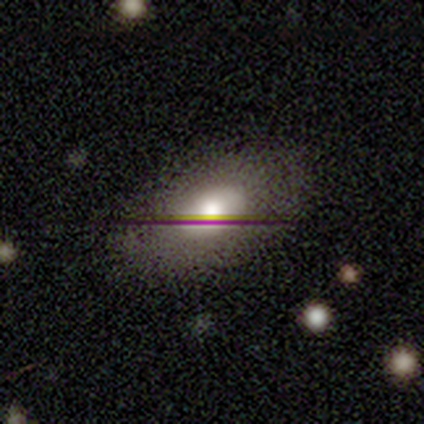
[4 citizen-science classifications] Smooth or featured?
  - smooth: 75% *
  - featured or disk: 25%
  - star or artifact: 0%
How rounded?
  - in between: 100% *
  - round: 0%
  - cigar-shaped: 0%
Merging?
  - none: 100% *
  - minor disturbance: 0%
  - major disturbance: 0%
  - merger: 0%